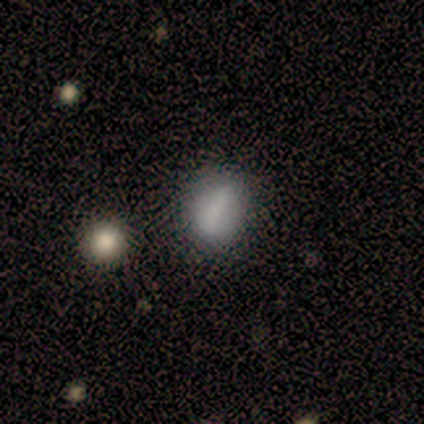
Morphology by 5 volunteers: This appears to be a smooth galaxy with no disk features (100%) that is in between round and cigar-shaped (60%). Merging: none (80%).